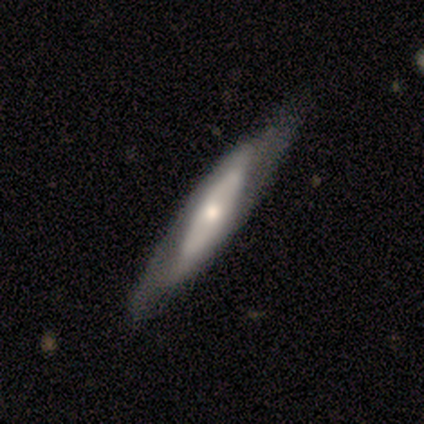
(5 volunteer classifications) Morphology: type=smooth (100%); roundness=cigar-shaped (100%); merging=none (80%).